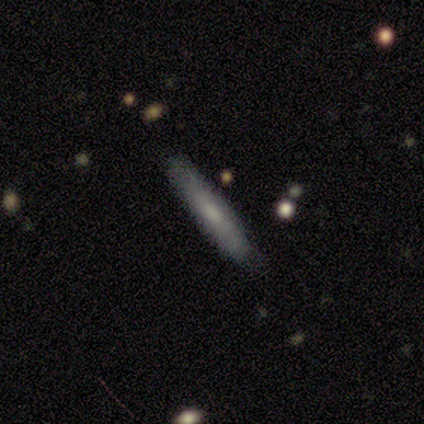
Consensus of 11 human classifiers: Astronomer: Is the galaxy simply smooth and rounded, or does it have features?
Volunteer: smooth — 55% (runner-up: featured or disk, 36%).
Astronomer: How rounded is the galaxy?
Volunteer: cigar-shaped — 100%.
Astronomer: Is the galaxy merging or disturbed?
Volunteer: none — 100%.